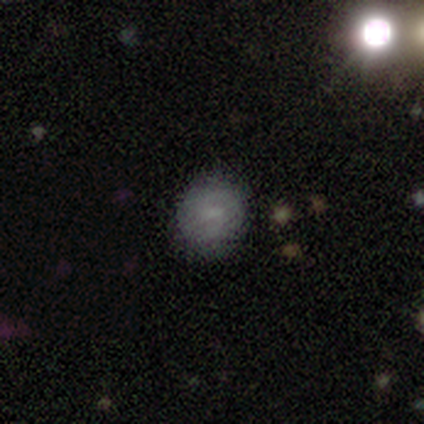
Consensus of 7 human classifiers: Smooth or featured: smooth — 57% (star or artifact — 29%)
How rounded: round — 75% (in between — 25%)
Merging: none — 60% (minor disturbance — 20%)